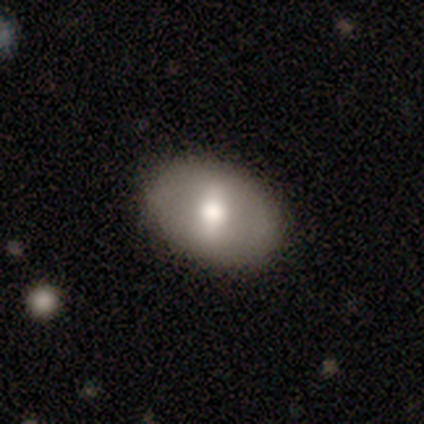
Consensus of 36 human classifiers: Smooth or featured?
  - featured or disk: 53% *
  - smooth: 44%
  - star or artifact: 3%
Edge-on disk?
  - no: 95% *
  - yes: 5%
Bar?
  - strong: 61% *
  - weak: 22%
  - no: 17%
Spiral arms?
  - no: 78% *
  - yes: 22%
Bulge size?
  - moderate: 67% *
  - large: 28%
  - small: 6%
  - dominant: 0%
  - none: 0%
Merging?
  - none: 91% *
  - minor disturbance: 9%
  - major disturbance: 0%
  - merger: 0%